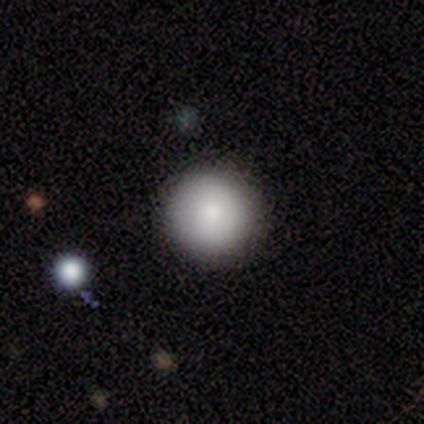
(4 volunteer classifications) Q: Smooth or featured?
A: smooth (75%); runner-up: featured or disk (25%)
Q: How rounded?
A: round (100%)
Q: Merging?
A: none (75%); runner-up: merger (25%)